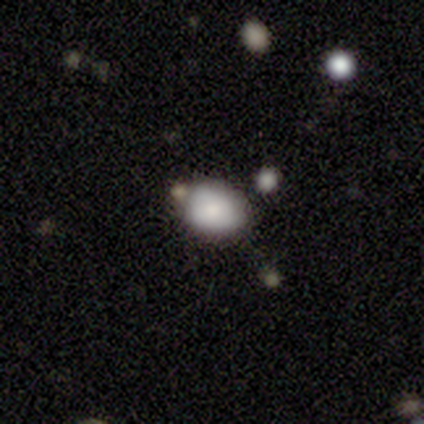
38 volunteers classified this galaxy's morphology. smooth-or-featured: smooth: 71% | star or artifact: 16% | featured or disk: 13%
  how-rounded: round: 52% | in between: 44% | cigar-shaped: 4%
  merging: none: 81% | minor disturbance: 16% | merger: 3% | major disturbance: 0%